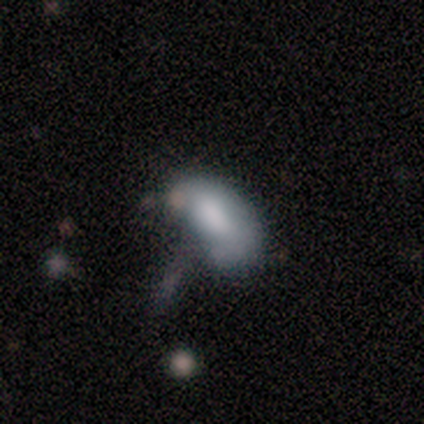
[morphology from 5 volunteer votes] A smooth galaxy with no disk features (60%) that is in between round and cigar-shaped (100%). Merging: major disturbance (75%).